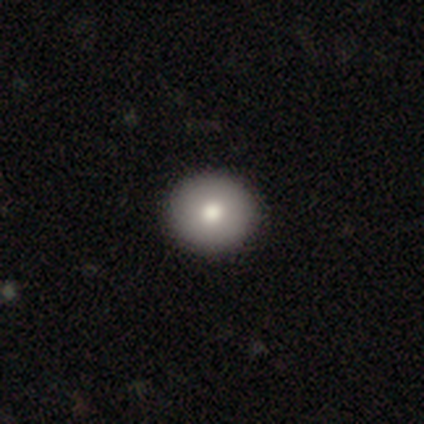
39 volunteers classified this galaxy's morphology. Smooth or featured?
  - smooth: 79% *
  - featured or disk: 13%
  - star or artifact: 8%
How rounded?
  - round: 87% *
  - in between: 13%
  - cigar-shaped: 0%
Merging?
  - none: 100% *
  - minor disturbance: 0%
  - major disturbance: 0%
  - merger: 0%